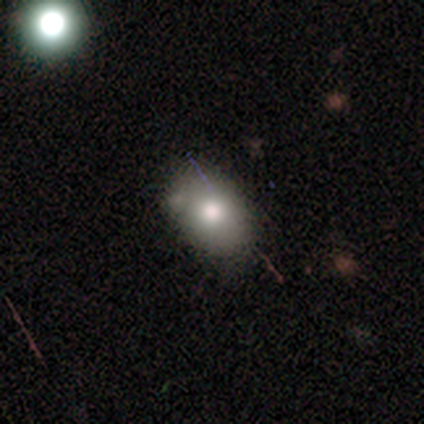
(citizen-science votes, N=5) Smooth or featured?
  - smooth: 60% *
  - featured or disk: 20%
  - star or artifact: 20%
How rounded?
  - round: 67% *
  - in between: 33%
  - cigar-shaped: 0%
Merging?
  - none: 50% *
  - major disturbance: 25%
  - merger: 25%
  - minor disturbance: 0%